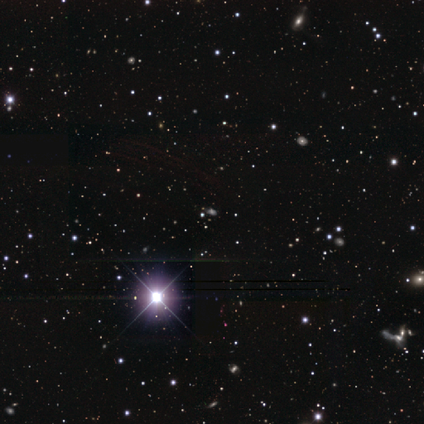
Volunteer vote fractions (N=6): Morphology: type=star or artifact (100%).